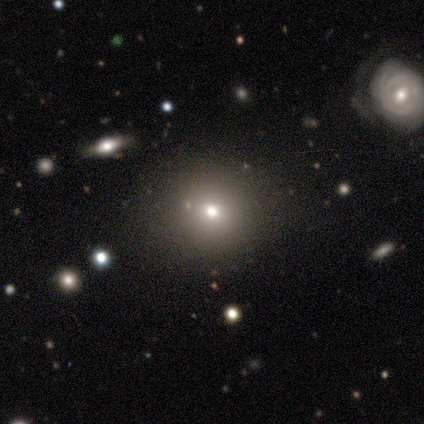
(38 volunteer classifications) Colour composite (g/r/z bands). It shows a smooth galaxy with no disk features (71%) that is round (96%). Merging: none (81%).